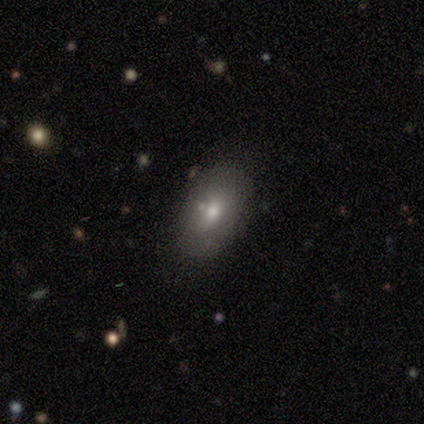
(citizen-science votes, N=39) Morphology: type=smooth (59%); roundness=in between (87%); merging=none (91%).